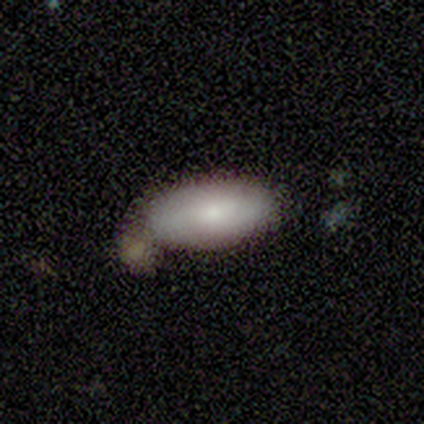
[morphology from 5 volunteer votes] Volunteers were most divided on "merging": none: 50%, major disturbance: 25%, merger: 25%, minor disturbance: 0%. More confident: how rounded — in between (100%); smooth or featured — smooth (60%).